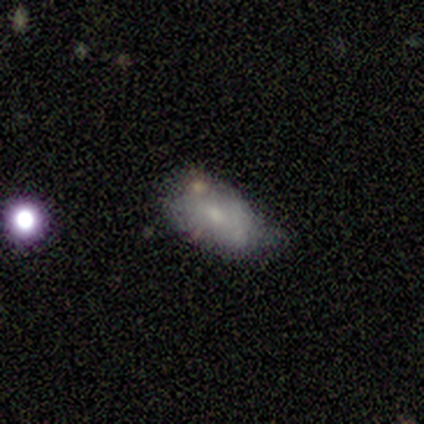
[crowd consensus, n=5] This is clearly a smooth galaxy (100%). How rounded: clearly in between (100%). Merging: clearly minor disturbance (80%).